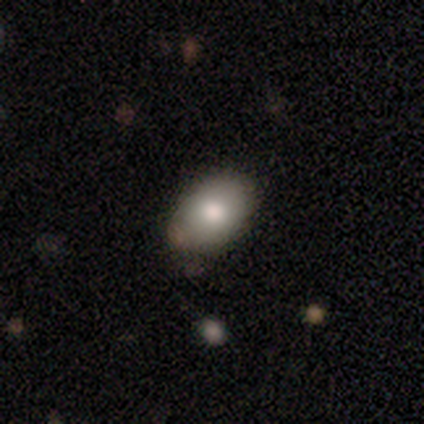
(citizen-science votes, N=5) A smooth galaxy with no disk features (80%) that is in between round and cigar-shaped (100%). Merging: none (100%).